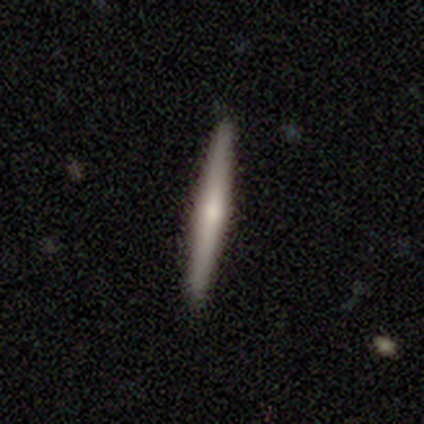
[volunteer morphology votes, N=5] This appears to be a smooth galaxy with no disk features (60%) that is cigar-shaped (100%). Merging: none (80%).